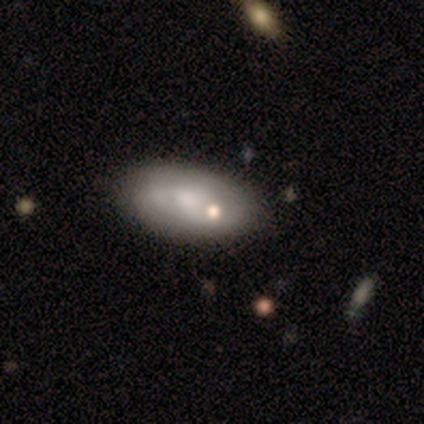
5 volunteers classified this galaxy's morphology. A featured or disk galaxy (60%) with no bar (100%), no spiral arms (67%) and a large central bulge (33%, tied with small and none).

Vote fractions:
- Smooth or featured? featured or disk: 60% / smooth: 40% / star or artifact: 0%
- Edge-on disk? no: 100% / yes: 0%
- Bar? no: 100% / strong: 0% / weak: 0%
- Spiral arms? no: 67% / yes: 33%
- Bulge size? large: 33% (tied) / small: 33% (tied) / none: 33% (tied) / dominant: 0% / moderate: 0%
- Merging? none: 80% / merger: 20% / minor disturbance: 0% / major disturbance: 0%